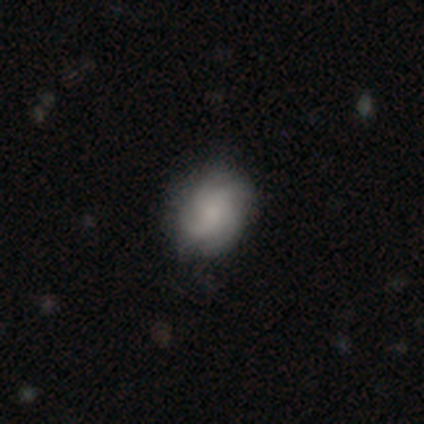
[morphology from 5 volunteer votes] smooth_or_featured: featured or disk (p=0.60) [alt: smooth p=0.40]
disk_edge_on: no (p=1.00)
bar: no (p=0.67) [alt: weak p=0.33]
has_spiral_arms: yes (p=1.00)
spiral_winding: tight (p=0.67) [alt: medium p=0.33]
spiral_arm_count: 3 (p=0.67) [alt: 4 p=0.33]
bulge_size: dominant (p=0.33) [tied with: small p=0.33, none p=0.33]
merging: none (p=1.00)